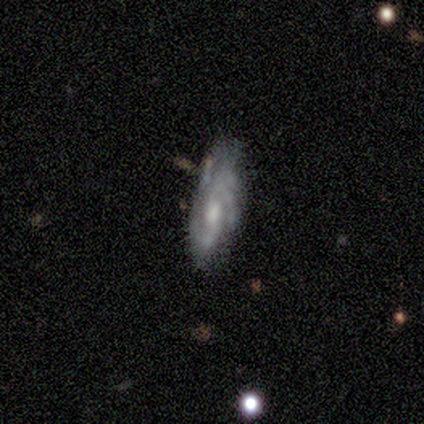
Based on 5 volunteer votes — This appears to be a featured or disk galaxy (100%) with a weak bar (60%), 3 (60%) medium (60%) spiral arms (100%) and a moderate central bulge (100%). Merging: minor disturbance (60%).